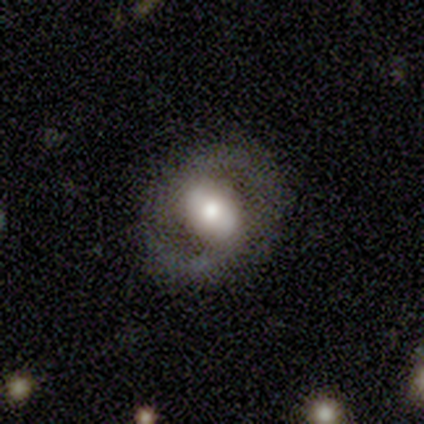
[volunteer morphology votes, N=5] This is likely a featured or disk galaxy (60%). It is clearly not viewed edge-on (100%). Bar: likely strong (67%). Spiral arm pattern: clearly yes (100%). Spiral arm count: clearly 2 (100%). Spiral winding: likely medium (67%). Central bulge: likely large (67%). Merging: clearly none (100%).